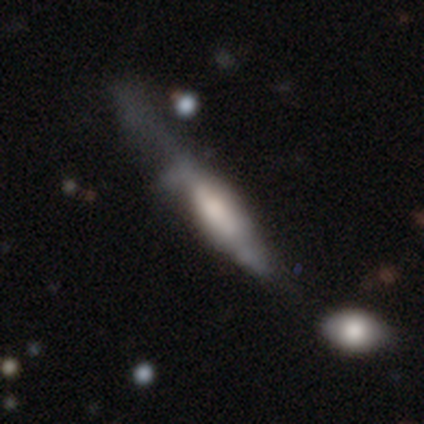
Volunteers were most divided on "merging" (2-way tie): none: 50%, major disturbance: 50%, minor disturbance: 0%, merger: 0%. More confident: how rounded — cigar-shaped (100%); smooth or featured — smooth (60%).